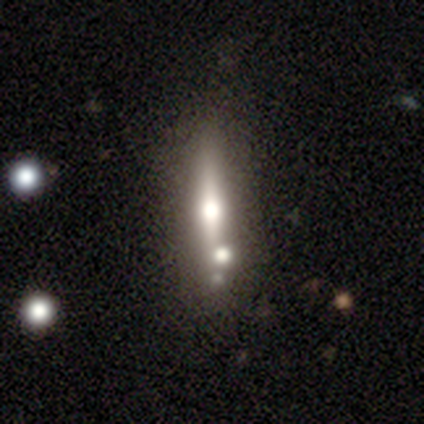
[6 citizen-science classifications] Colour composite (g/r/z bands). It shows a smooth galaxy with no disk features (50%, tied with featured or disk) that is cigar-shaped (100%). Merging: none (100%).